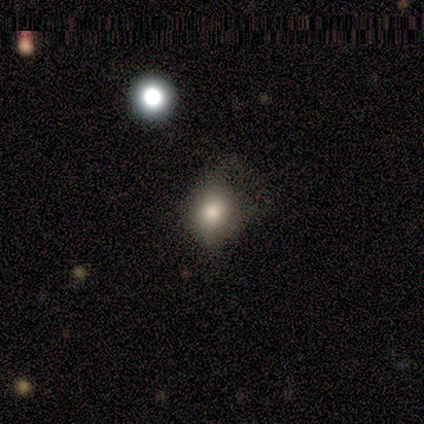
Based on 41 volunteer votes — This is clearly a smooth galaxy (80%). How rounded: possibly round (58%). Merging: marginally none (32%).